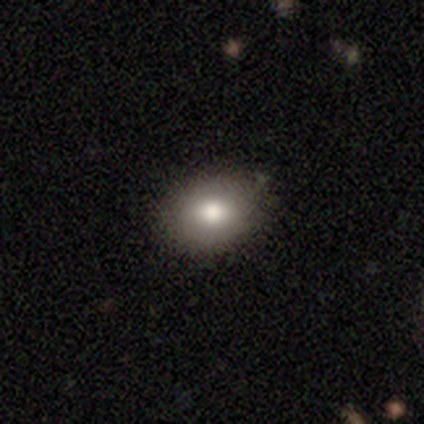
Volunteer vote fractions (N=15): Smooth or featured: smooth — 73% (featured or disk — 13%)
How rounded: in between — 55% (round — 45%)
Merging: none — 62% (minor disturbance — 23%)